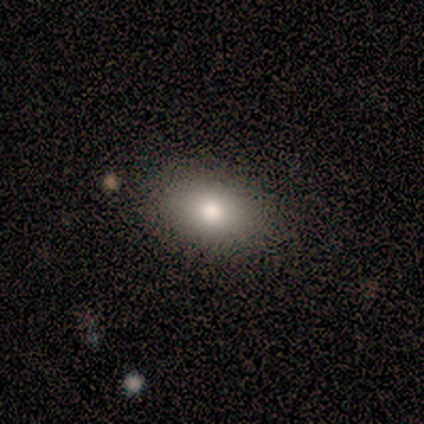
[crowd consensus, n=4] Q: Smooth or featured?
A: smooth (75%); runner-up: star or artifact (25%)
Q: How rounded?
A: in between (100%)
Q: Merging?
A: none (100%)